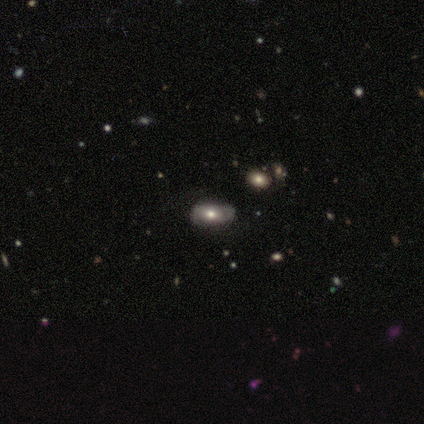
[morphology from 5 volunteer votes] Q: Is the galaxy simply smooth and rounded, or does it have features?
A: featured or disk — 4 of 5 (80%).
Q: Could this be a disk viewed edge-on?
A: no — 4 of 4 (100%).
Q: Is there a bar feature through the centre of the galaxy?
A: no — 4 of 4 (100%).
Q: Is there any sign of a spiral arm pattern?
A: no — 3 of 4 (75%).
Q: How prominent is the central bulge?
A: moderate — 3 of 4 (75%).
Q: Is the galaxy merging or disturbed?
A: none — 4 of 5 (80%).